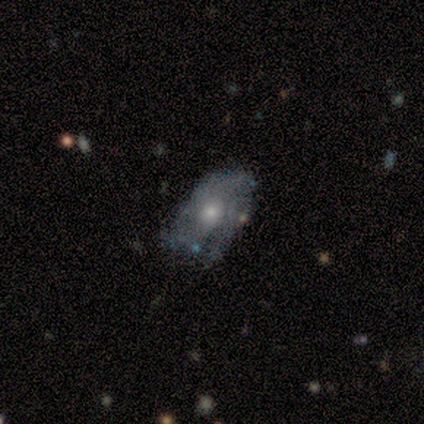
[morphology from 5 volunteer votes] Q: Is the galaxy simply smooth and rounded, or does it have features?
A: featured or disk — 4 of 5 (80%).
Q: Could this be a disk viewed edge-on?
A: no — 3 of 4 (75%).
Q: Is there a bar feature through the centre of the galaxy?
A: no — 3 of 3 (100%).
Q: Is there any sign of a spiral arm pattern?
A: no — 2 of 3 (67%).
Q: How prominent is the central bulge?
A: moderate — 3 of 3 (100%).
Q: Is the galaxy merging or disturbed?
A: minor disturbance — 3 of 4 (75%).